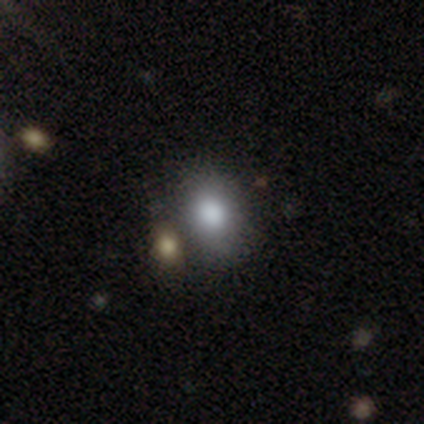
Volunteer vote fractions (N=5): Smooth or featured?
  - smooth: 60% *
  - featured or disk: 40%
  - star or artifact: 0%
How rounded?
  - in between: 100% *
  - round: 0%
  - cigar-shaped: 0%
Merging?
  - merger: 60% *
  - none: 40%
  - minor disturbance: 0%
  - major disturbance: 0%